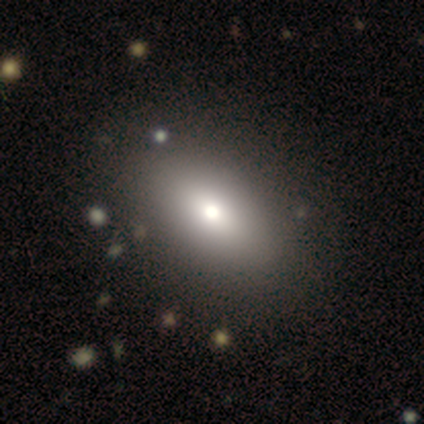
smooth-or-featured: smooth: 100% | featured or disk: 0% | star or artifact: 0%
  how-rounded: in between: 100% | round: 0% | cigar-shaped: 0%
  merging: none: 80% | minor disturbance: 20% | major disturbance: 0% | merger: 0%